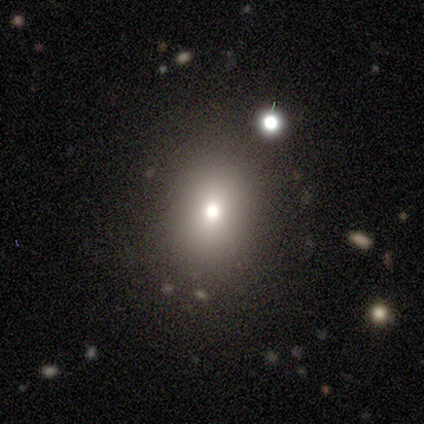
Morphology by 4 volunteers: A smooth galaxy with no disk features (50%) that is round (100%). Merging: none (67%).